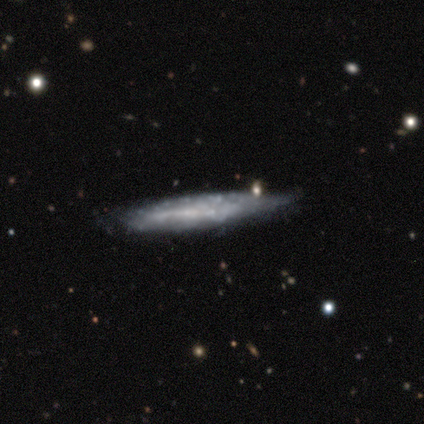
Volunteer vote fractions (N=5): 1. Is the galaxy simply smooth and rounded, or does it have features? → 60% featured or disk, 40% smooth, 0% star or artifact.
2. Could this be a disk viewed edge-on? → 67% yes, 33% no.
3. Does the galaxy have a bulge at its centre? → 100% none, 0% boxy, 0% rounded.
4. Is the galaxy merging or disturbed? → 100% none, 0% minor disturbance, 0% major disturbance, 0% merger.